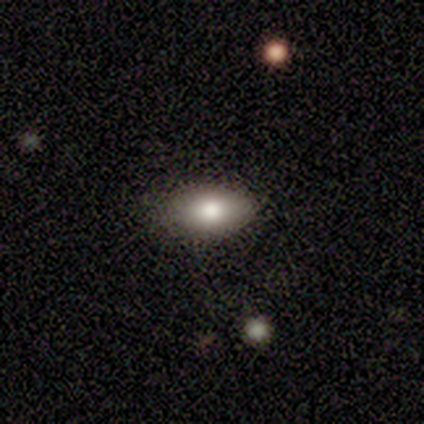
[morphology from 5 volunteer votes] Smooth or featured?
  - smooth: 80% *
  - featured or disk: 20%
  - star or artifact: 0%
How rounded?
  - in between: 100% *
  - round: 0%
  - cigar-shaped: 0%
Merging?
  - none: 80% *
  - minor disturbance: 20%
  - major disturbance: 0%
  - merger: 0%